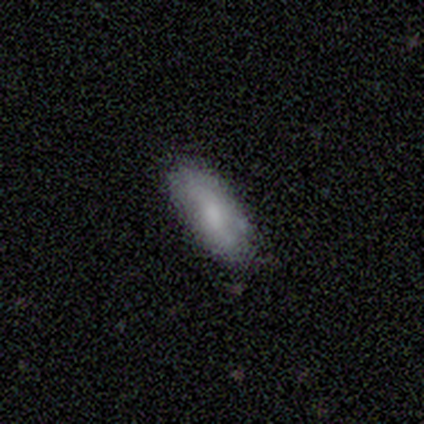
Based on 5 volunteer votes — smooth 60%, featured or disk 40%, star or artifact 0%. Down the decision tree: how rounded — in between (100%); merging — none (80%).